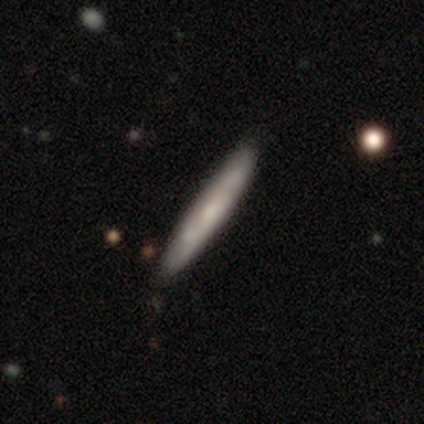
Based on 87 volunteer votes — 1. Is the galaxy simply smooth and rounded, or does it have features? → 46% smooth, 45% featured or disk, 9% star or artifact.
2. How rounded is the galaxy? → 100% cigar-shaped, 0% round, 0% in between.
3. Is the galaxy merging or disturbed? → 77% none, 16% minor disturbance, 6% merger, 0% major disturbance.